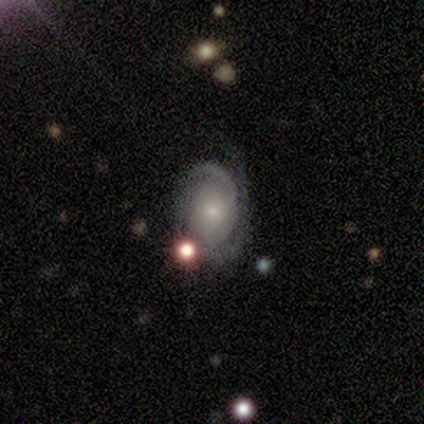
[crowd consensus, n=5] This is clearly a featured or disk galaxy (80%). It is clearly not viewed edge-on (100%). Bar: possibly weak (50%, tied with no). Spiral arm pattern: clearly yes (100%). Spiral arm count: likely 2 (75%). Spiral winding: likely tight (75%). Central bulge: clearly small (100%). Merging: clearly none (100%).